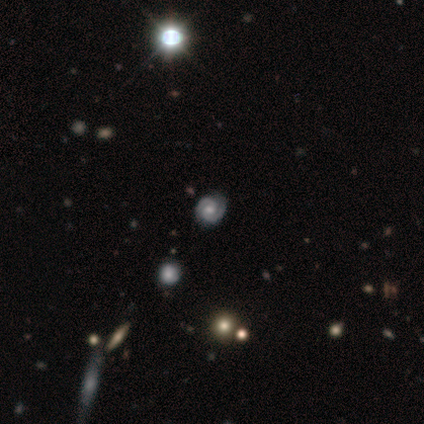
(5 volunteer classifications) A featured or disk galaxy (80%) with no bar (100%), 2 (75%) tight (75%) spiral arms (100%) and a moderate central bulge (50%). Merging: none (100%).